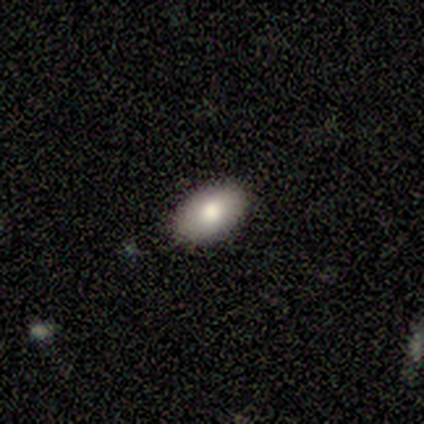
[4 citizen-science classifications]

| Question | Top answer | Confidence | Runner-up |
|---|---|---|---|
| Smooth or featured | smooth | 100% | — |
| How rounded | in between | 75% | round (25%) |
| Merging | none | 100% | — |